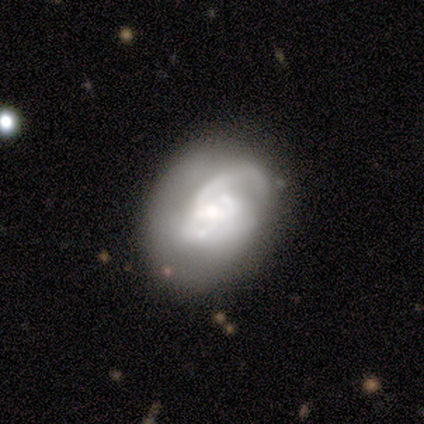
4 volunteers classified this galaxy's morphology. featured or disk 100%, smooth 0%, star or artifact 0%. Down the decision tree: edge-on disk — no (100%); bar — no (75%); spiral arms — yes (100%); spiral arm count — can't tell (50%); spiral winding — medium (75%); bulge size — moderate (50%); merging — none (75%).